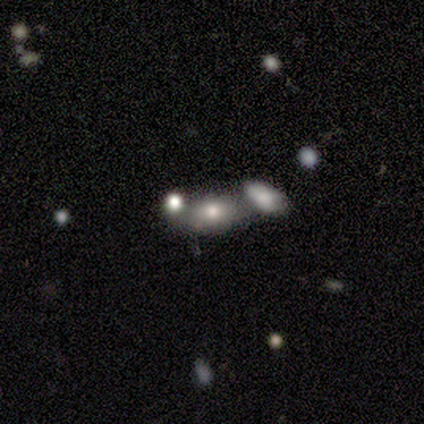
This appears to be a smooth galaxy with no disk features (40%, tied with featured or disk) that is in between round and cigar-shaped (100%). Merging: none (50%).